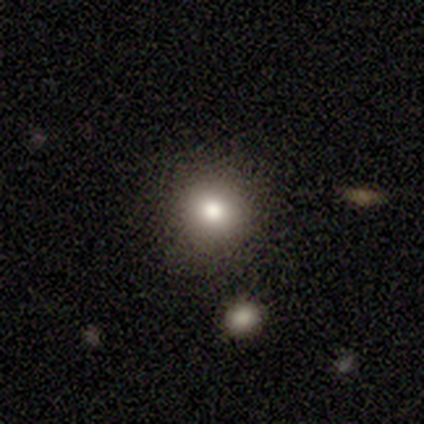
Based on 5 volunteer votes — smooth_or_featured: smooth (p=1.00)
how_rounded: round (p=1.00)
merging: none (p=0.80) [alt: merger p=0.20]